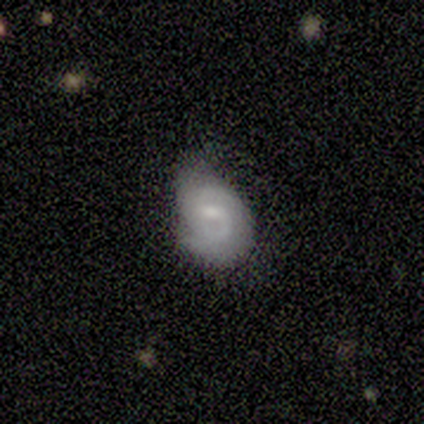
Smooth or featured: featured or disk — 100%
Edge-on disk: no — 100%
Bar: weak — 80% (no — 20%)
Spiral arms: yes — 100%
Spiral winding: medium — 80% (tight — 20%)
Spiral arm count: 2 — 60% (1 — 20%)
Bulge size: moderate — 40% (tied with small — 40%)
Merging: none — 60% (minor disturbance — 20%)